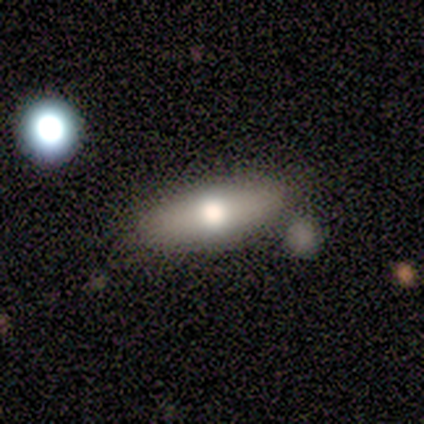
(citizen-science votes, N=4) smooth_or_featured: smooth (p=0.75) [alt: featured or disk p=0.25]
how_rounded: in between (p=1.00)
merging: none (p=0.75) [alt: minor disturbance p=0.25]